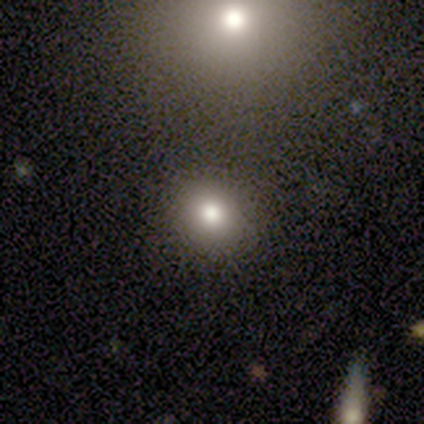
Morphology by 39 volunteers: Smooth or featured?
  - smooth: 72% *
  - star or artifact: 21%
  - featured or disk: 8%
How rounded?
  - round: 89% *
  - in between: 7%
  - cigar-shaped: 4%
Merging?
  - none: 84% *
  - minor disturbance: 10%
  - merger: 6%
  - major disturbance: 0%